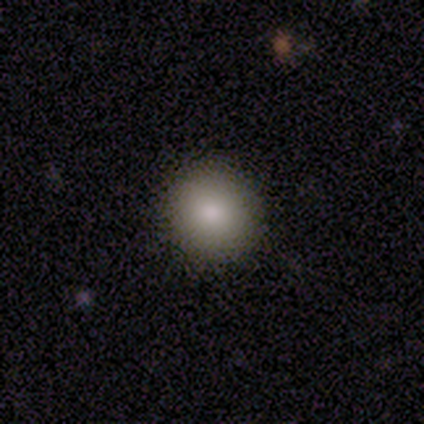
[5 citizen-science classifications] Smooth or featured? smooth (100%)
How rounded? round (80%)
Merging? none (60%)